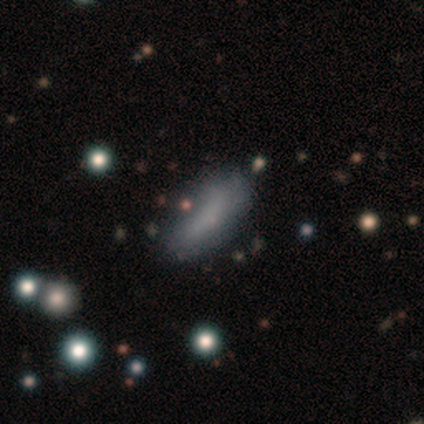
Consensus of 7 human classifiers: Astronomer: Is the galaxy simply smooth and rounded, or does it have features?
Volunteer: smooth — 57%.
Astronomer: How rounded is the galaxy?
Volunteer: in between — 75%.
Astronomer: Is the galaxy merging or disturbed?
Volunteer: none — 60% (runner-up: minor disturbance, 40%).